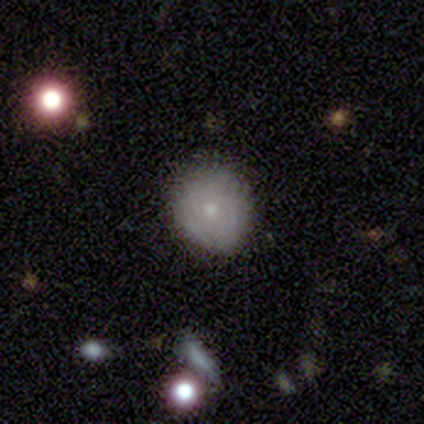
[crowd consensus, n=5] A smooth galaxy with no disk features (80%) that is round (75%). Merging: none (60%).